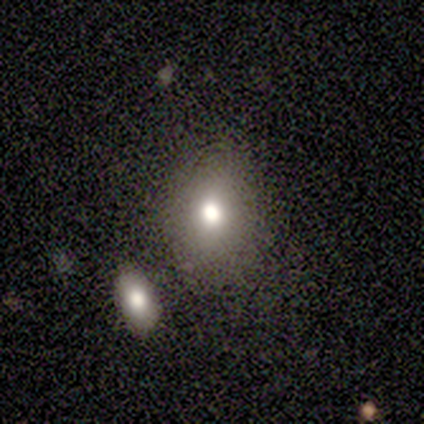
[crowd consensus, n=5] This is clearly a smooth galaxy (80%). How rounded: clearly in between (100%). Merging: likely none (60%).